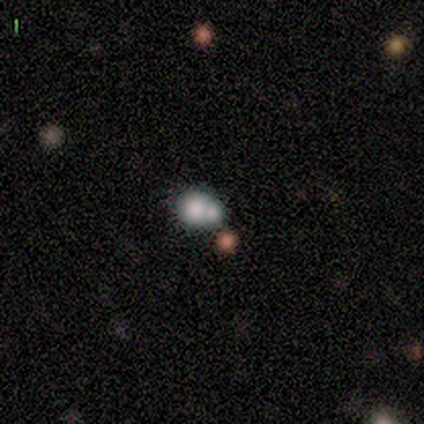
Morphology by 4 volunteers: Smooth or featured: smooth — 50% (featured or disk — 25%)
How rounded: round — 100%
Merging: merger — 67% (minor disturbance — 33%)